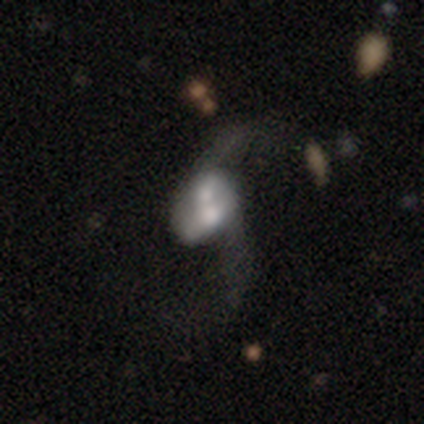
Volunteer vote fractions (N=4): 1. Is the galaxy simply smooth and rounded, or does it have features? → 75% featured or disk, 25% smooth, 0% star or artifact.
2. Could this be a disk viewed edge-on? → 100% no, 0% yes.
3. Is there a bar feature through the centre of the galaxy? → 67% no, 33% weak, 0% strong.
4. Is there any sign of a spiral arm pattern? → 100% yes, 0% no.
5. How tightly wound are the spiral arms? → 100% loose, 0% tight, 0% medium.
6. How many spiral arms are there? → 100% 2, 0% 1, 0% 3, 0% 4, 0% more than 4, 0% can't tell.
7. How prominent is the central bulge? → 33% large (tied), 33% moderate (tied), 33% small (tied), 0% dominant, 0% none.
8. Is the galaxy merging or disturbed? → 50% merger, 25% none, 25% major disturbance, 0% minor disturbance.